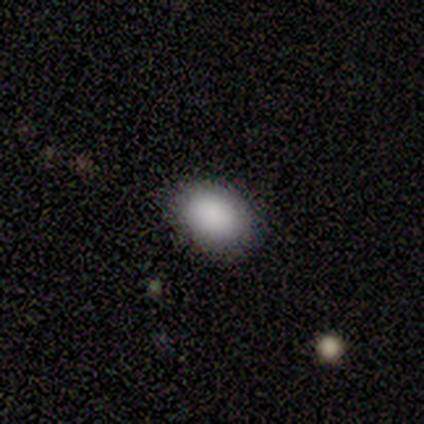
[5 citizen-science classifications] A smooth galaxy with no disk features (60%) that is in between round and cigar-shaped (100%). Merging: none (100%).